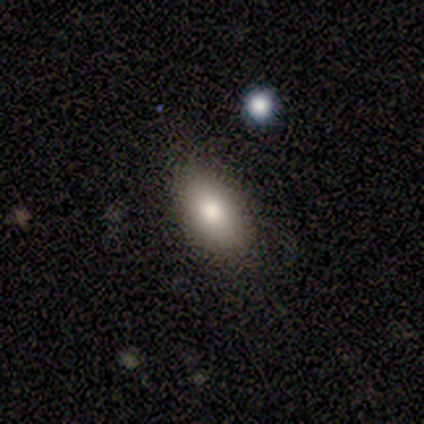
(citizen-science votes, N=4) A smooth galaxy with no disk features (100%) that is in between round and cigar-shaped (100%).

Vote fractions:
- Smooth or featured? smooth: 100% / featured or disk: 0% / star or artifact: 0%
- How rounded? in between: 100% / round: 0% / cigar-shaped: 0%
- Merging? none: 100% / minor disturbance: 0% / major disturbance: 0% / merger: 0%